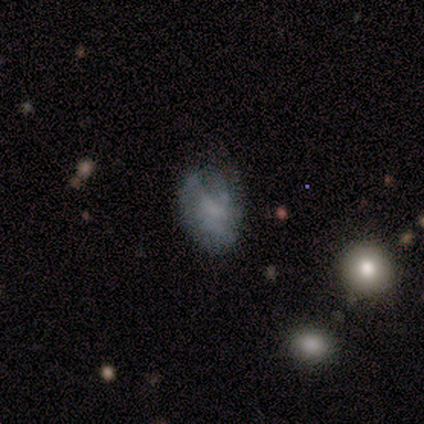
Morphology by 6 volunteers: A smooth galaxy with no disk features (50%) that is in between round and cigar-shaped (100%).

Vote fractions:
- Smooth or featured? smooth: 50% / featured or disk: 33% / star or artifact: 17%
- How rounded? in between: 100% / round: 0% / cigar-shaped: 0%
- Merging? none: 40% (tied) / minor disturbance: 40% (tied) / major disturbance: 20% / merger: 0%